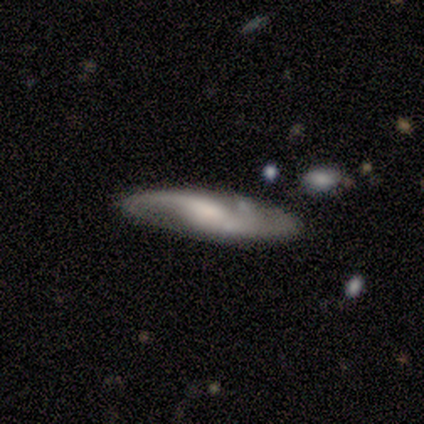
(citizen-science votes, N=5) Volunteers were most divided on "smooth or featured": featured or disk: 60%, smooth: 40%, star or artifact: 0%. More confident: edge-on disk — no (100%); bar — weak (100%); spiral arms — yes (100%); spiral winding — medium (100%); merging — none (80%); spiral arm count — 2 (67%); bulge size — large (67%).